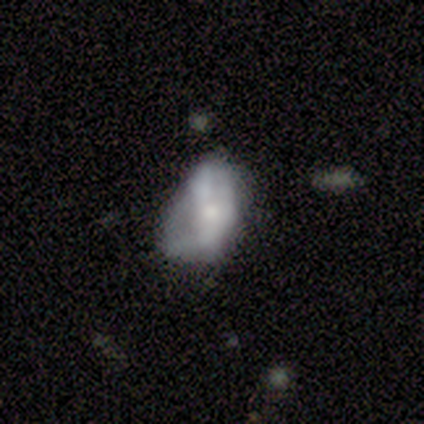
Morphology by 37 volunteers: Overall: featured or disk (51%; smooth 41%). Edge-on disk: no (95%). Bar: no (89%). Spiral arms: no (83%). Bulge size: small (44%; none 33%). Merging: none (29%; minor disturbance 26%).